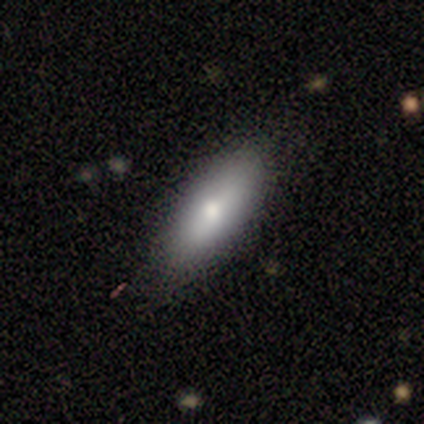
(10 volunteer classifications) This is clearly a smooth galaxy (80%). How rounded: clearly in between (88%). Merging: likely none (78%).